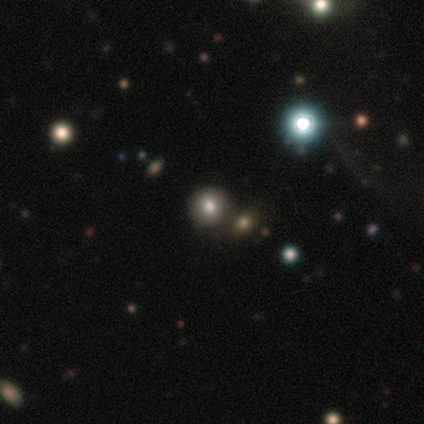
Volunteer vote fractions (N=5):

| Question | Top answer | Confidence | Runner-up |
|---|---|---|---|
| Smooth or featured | star or artifact | 60% | smooth (40%) |